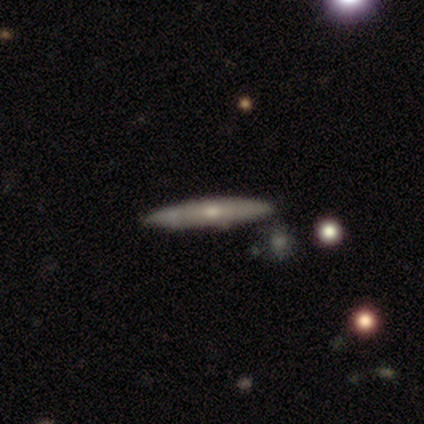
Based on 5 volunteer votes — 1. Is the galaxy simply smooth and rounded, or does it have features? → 80% featured or disk, 20% smooth, 0% star or artifact.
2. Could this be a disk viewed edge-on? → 100% yes, 0% no.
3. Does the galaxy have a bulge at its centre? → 75% rounded, 25% none, 0% boxy.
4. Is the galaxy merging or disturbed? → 80% none, 20% minor disturbance, 0% major disturbance, 0% merger.